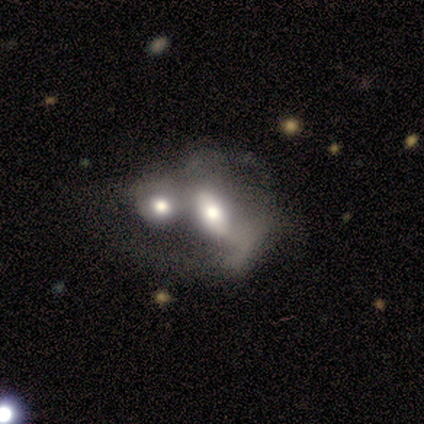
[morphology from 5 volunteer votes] Volunteers were most divided on "smooth or featured" (2-way tie): smooth: 40%, featured or disk: 40%, star or artifact: 20%. More confident: how rounded — in between (100%); merging — merger (100%).